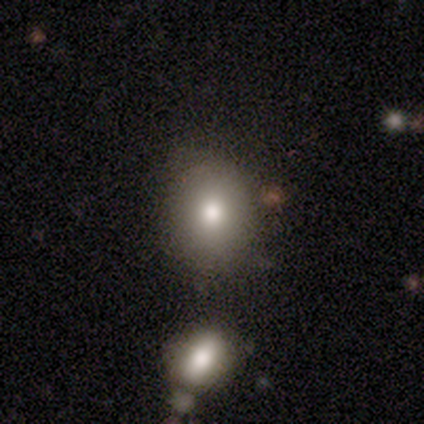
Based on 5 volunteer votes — A smooth galaxy with no disk features (80%) that is round (75%). Merging: none (80%).